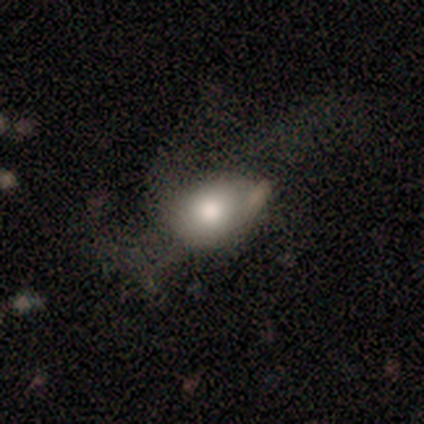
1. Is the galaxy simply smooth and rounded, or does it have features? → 62% smooth, 38% featured or disk, 0% star or artifact.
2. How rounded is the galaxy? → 80% in between, 20% round, 0% cigar-shaped.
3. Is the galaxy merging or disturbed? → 62% none, 25% minor disturbance, 12% major disturbance, 0% merger.